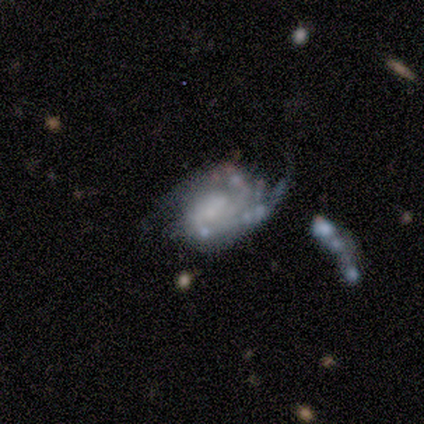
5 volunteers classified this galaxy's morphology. smooth-or-featured: featured or disk: 100% | smooth: 0% | star or artifact: 0%
  disk-edge-on: no: 100% | yes: 0%
    bar: no: 80% | weak: 20% | strong: 0%
    has-spiral-arms: yes: 80% | no: 20%
      spiral-winding: tight: 75% | loose: 25% | medium: 0%
      spiral-arm-count: 2: 75% | 3: 25% | 1: 0% | 4: 0% | more than 4: 0% | can't tell: 0%
    bulge-size: none: 60% | dominant: 20% | small: 20% | large: 0% | moderate: 0%
  merging: none: 40% (tied) | major disturbance: 40% (tied) | minor disturbance: 20% | merger: 0%